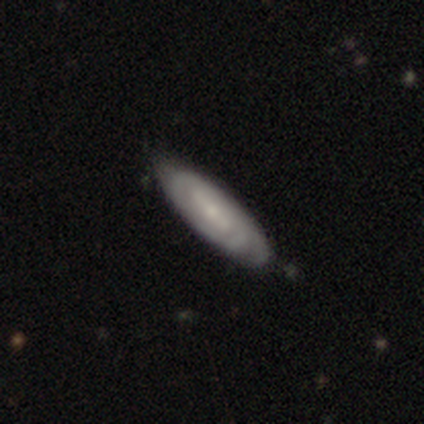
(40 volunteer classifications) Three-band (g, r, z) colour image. It shows a featured or disk galaxy (72%) with a weak bar (42%), tight (76%) spiral arms (81%) and a small central bulge (62%). Merging: none (54%).